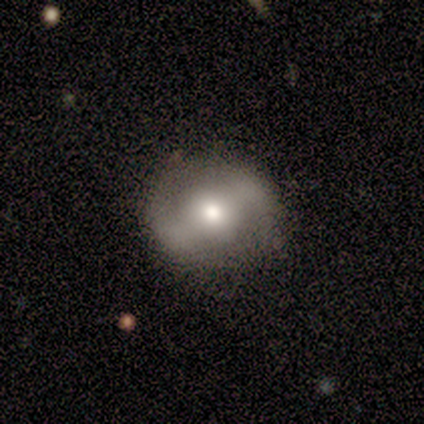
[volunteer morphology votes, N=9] A featured or disk galaxy (78%) with a weak bar (57%), no spiral arms (86%) and a moderate central bulge (57%). Merging: none (78%).